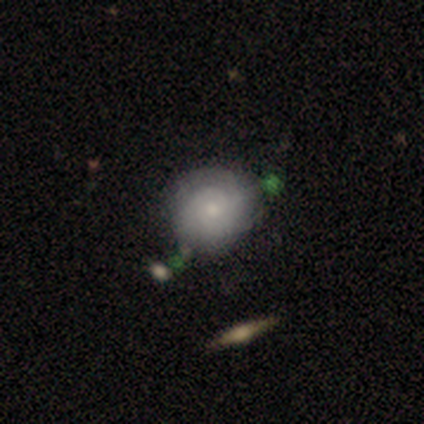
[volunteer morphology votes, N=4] This is likely a featured or disk galaxy (75%). It is clearly not viewed edge-on (100%). Bar: clearly no (100%). Spiral arm pattern: clearly yes (100%). Spiral arm count: marginally 2 (33%, tied with 4 and can't tell). Spiral winding: likely tight (67%). Central bulge: likely small (67%). Merging: likely none (75%).